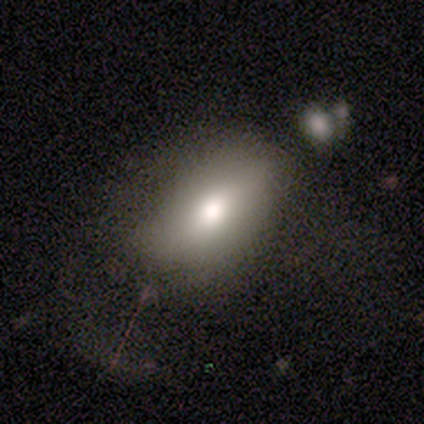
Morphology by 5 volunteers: Overall: smooth (80%). How rounded: in between (100%). Merging: none (50%; minor disturbance 25%).